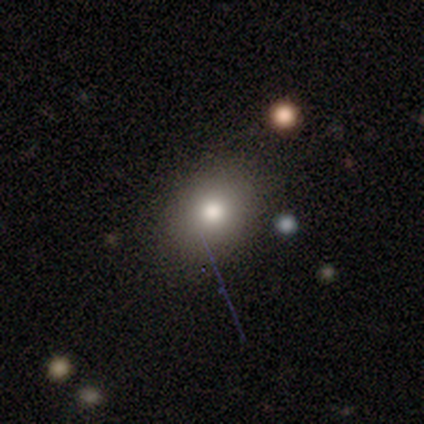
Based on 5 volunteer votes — Smooth or featured: smooth — 100%
How rounded: round — 60% (in between — 20%)
Merging: none — 60% (minor disturbance — 20%)